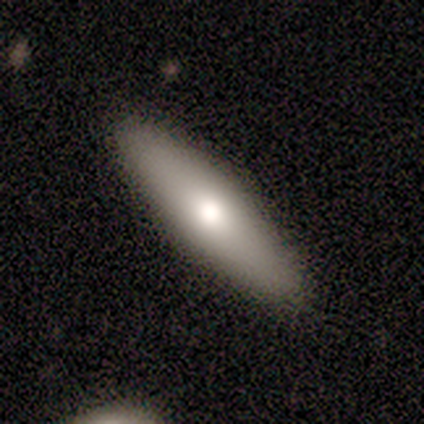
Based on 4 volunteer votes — A smooth galaxy with no disk features (100%) that is cigar-shaped (100%).

Vote fractions:
- Smooth or featured? smooth: 100% / featured or disk: 0% / star or artifact: 0%
- How rounded? cigar-shaped: 100% / round: 0% / in between: 0%
- Merging? none: 50% (tied) / minor disturbance: 50% (tied) / major disturbance: 0% / merger: 0%